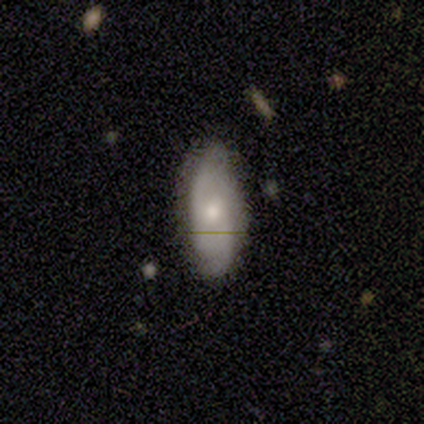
Smooth or featured: smooth — 100%
How rounded: in between — 75% (cigar-shaped — 25%)
Merging: none — 50% (minor disturbance — 25%)